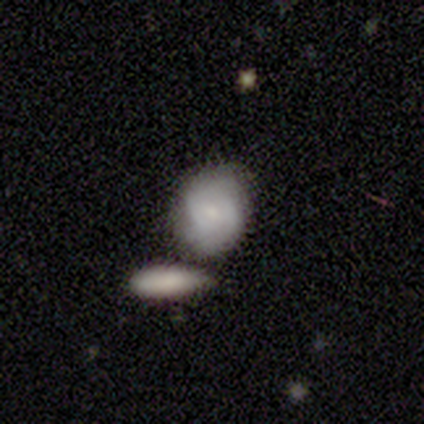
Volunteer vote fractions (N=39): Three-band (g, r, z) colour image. It shows a featured or disk galaxy (51%) with no bar (65%), 2 (47%) tight (73%) spiral arms (75%) and a small central bulge (70%). Merging: none (41%).